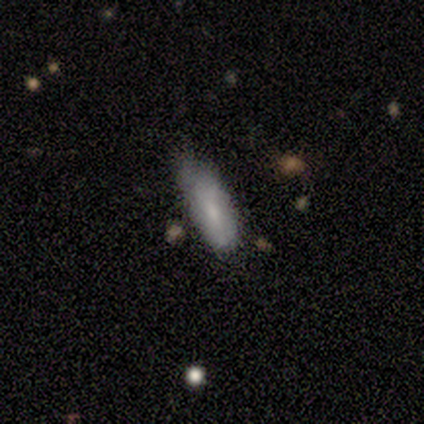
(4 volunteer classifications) A smooth galaxy with no disk features (50%) that is in between round and cigar-shaped (50%, tied with cigar-shaped). Merging: minor disturbance (67%).